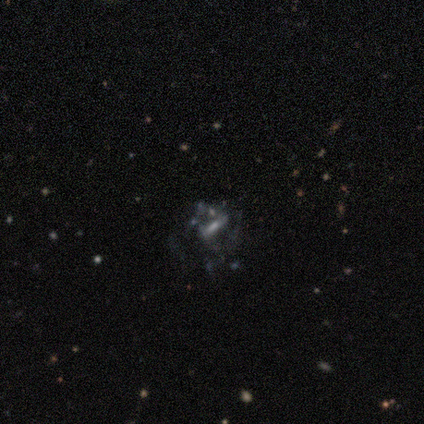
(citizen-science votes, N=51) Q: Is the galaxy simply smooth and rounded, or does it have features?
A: featured or disk — 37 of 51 (73%).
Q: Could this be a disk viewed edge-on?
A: no — 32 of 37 (86%).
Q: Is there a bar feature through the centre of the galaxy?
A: strong — 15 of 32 (47%).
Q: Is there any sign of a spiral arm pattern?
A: no — 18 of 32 (56%).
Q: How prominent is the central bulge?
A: none — 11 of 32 (34%).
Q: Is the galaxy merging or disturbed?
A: major disturbance — 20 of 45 (44%).